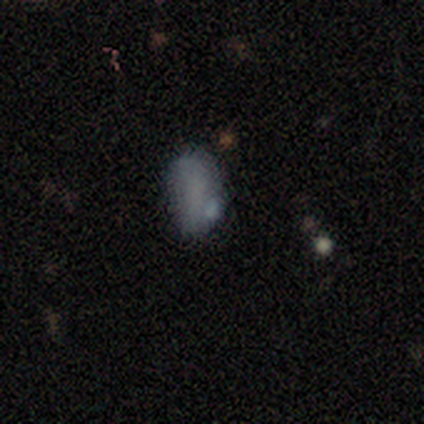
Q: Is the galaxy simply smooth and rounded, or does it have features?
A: smooth — 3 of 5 (60%).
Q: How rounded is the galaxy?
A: in between — 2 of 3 (67%).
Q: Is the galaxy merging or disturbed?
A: none — 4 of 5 (80%).